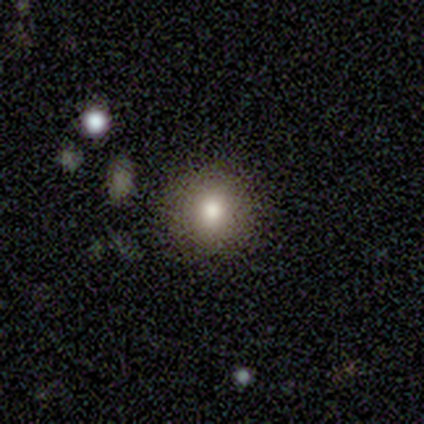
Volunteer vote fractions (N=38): Smooth or featured: smooth — 68% (star or artifact — 18%)
How rounded: round — 88% (in between — 8%)
Merging: none — 87% (minor disturbance — 10%)